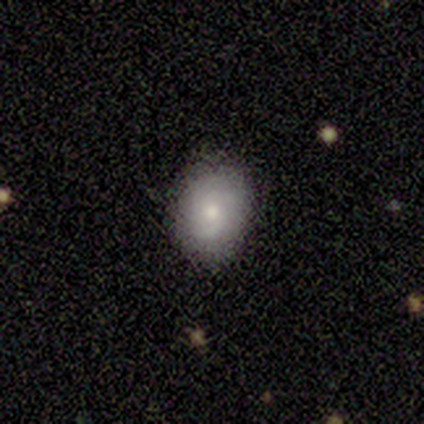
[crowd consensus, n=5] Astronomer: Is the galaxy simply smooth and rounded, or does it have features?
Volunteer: featured or disk — 80%.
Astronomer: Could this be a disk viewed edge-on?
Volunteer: no — 100%.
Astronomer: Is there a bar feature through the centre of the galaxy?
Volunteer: no — 100%.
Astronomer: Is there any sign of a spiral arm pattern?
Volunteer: yes — 75%.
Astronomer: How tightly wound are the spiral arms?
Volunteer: tight — 100%.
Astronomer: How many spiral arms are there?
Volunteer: can't tell — 67%.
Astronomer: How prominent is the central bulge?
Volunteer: moderate — 75%.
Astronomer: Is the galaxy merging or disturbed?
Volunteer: none — 60% (runner-up: minor disturbance, 40%).